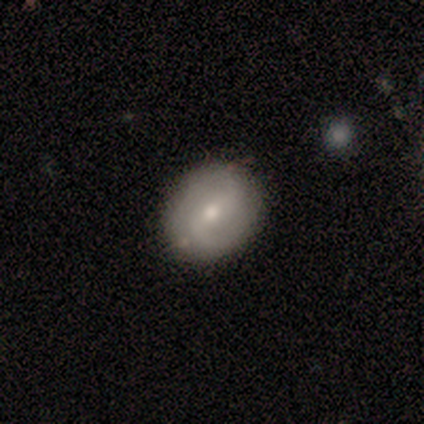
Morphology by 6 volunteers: Smooth or featured? smooth (50%)
How rounded? in between (100%)
Merging? none (100%)